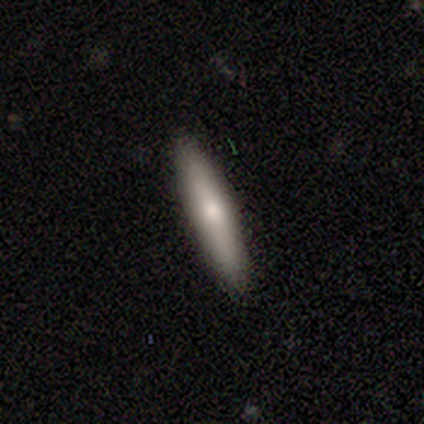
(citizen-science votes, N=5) Overall: smooth (100%). How rounded: cigar-shaped (100%). Merging: none (80%).